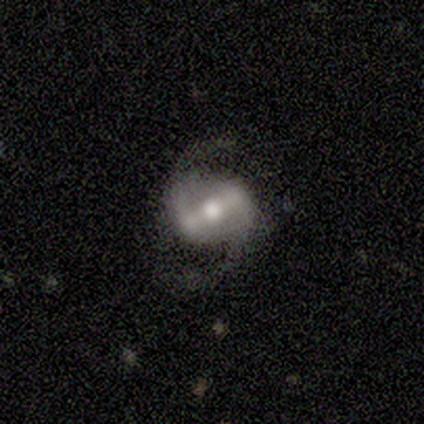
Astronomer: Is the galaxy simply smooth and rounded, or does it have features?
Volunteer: featured or disk — 75%.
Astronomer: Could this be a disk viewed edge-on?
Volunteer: no — 100%.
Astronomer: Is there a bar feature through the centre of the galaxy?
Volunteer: strong — 67%.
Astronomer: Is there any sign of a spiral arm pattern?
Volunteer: yes — 100%.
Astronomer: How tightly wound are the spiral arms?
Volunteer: medium — 100%.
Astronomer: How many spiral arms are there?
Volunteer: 2 — 100%.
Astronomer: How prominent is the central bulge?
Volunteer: moderate — 100%.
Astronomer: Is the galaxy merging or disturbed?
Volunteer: none — 100%.